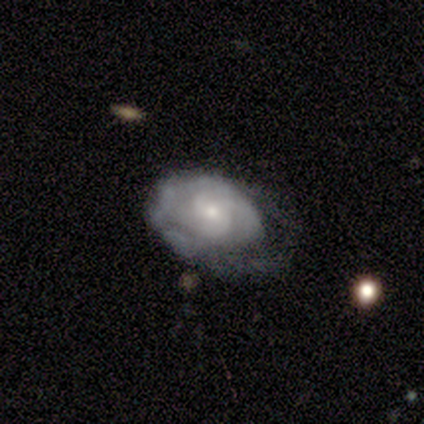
Smooth or featured? 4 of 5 (80%) said featured or disk. Edge-on disk? 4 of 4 (100%) said no. Bar? 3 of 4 (75%) said no. Spiral arms? 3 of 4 (75%) said yes. Spiral winding? 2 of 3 (67%) said tight. Spiral arm count? 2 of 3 (67%) said can't tell. Bulge size? 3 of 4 (75%) said small. Merging? 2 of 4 (50%) said minor disturbance.